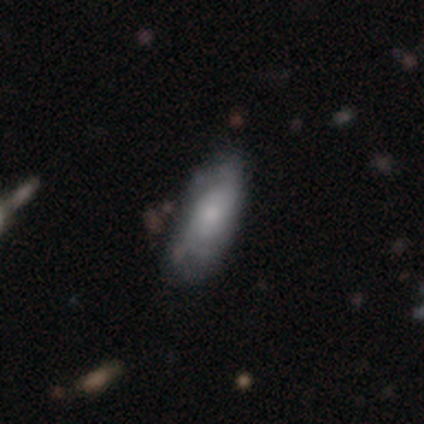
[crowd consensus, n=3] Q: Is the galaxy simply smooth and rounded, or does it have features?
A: smooth — 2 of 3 (67%).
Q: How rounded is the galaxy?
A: in between — 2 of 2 (100%).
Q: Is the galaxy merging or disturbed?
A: minor disturbance — 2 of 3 (67%).